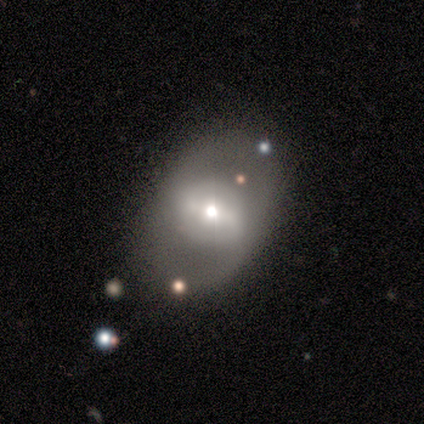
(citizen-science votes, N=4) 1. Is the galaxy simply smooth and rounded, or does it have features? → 75% featured or disk, 25% smooth, 0% star or artifact.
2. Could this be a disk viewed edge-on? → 100% no, 0% yes.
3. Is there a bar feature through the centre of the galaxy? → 67% no, 33% weak, 0% strong.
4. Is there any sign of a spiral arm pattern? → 67% no, 33% yes.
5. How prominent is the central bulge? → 33% dominant (tied), 33% large (tied), 33% small (tied), 0% moderate, 0% none.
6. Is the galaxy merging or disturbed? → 75% none, 25% minor disturbance, 0% major disturbance, 0% merger.